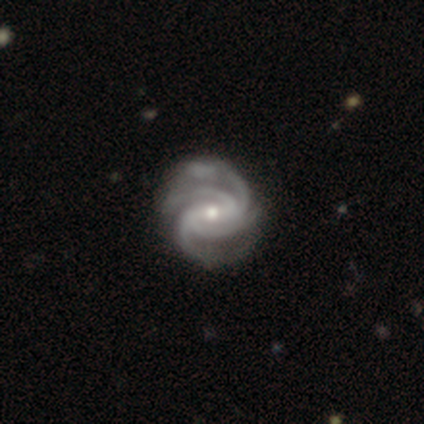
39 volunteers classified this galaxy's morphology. featured or disk 85%, smooth 10%, star or artifact 5%. Down the decision tree: edge-on disk — no (94%); bar — weak (55%); spiral arms — yes (100%); spiral arm count — 4 (84%); spiral winding — tight (71%); bulge size — small (52%); merging — none (81%).